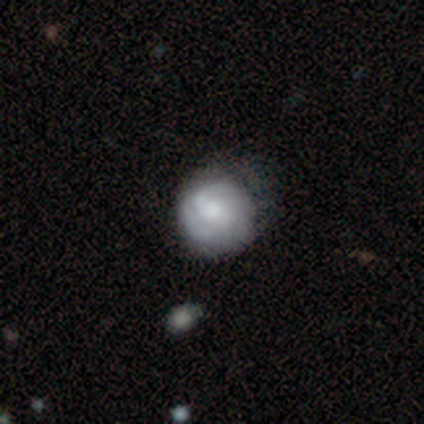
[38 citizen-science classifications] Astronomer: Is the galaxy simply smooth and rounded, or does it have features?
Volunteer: featured or disk — 68%.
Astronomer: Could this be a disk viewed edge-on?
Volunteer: no — 100%.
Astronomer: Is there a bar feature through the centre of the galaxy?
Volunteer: no — 58%.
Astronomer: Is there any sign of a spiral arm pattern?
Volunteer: yes — 81%.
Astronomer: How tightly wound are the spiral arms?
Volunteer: tight — 71%.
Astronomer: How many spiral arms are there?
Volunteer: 2 — 81%.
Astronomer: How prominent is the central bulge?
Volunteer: moderate — 58%.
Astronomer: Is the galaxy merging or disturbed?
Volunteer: none — 35% (runner-up: minor disturbance, 14%).